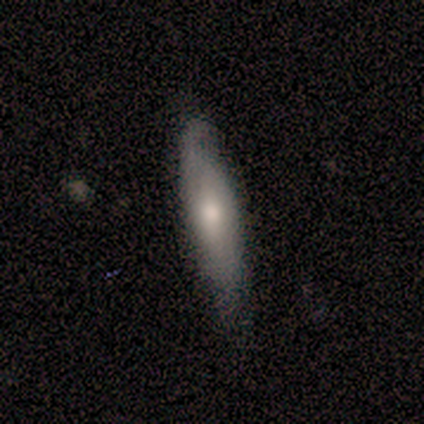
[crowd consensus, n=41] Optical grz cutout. It shows a smooth galaxy with no disk features (59%) that is in between round and cigar-shaped (50%, tied with cigar-shaped). Merging: none (73%).